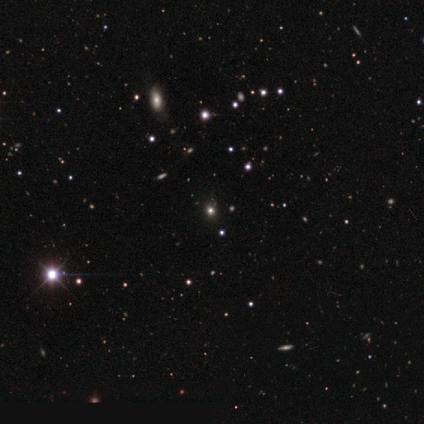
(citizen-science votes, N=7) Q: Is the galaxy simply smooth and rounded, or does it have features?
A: star or artifact — 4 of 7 (57%).